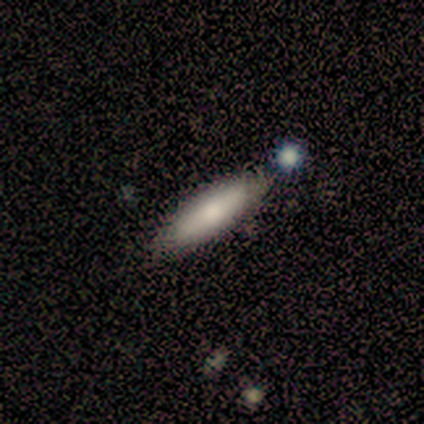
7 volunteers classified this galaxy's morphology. Smooth or featured? smooth (57%)
How rounded? cigar-shaped (100%)
Merging? none (83%)